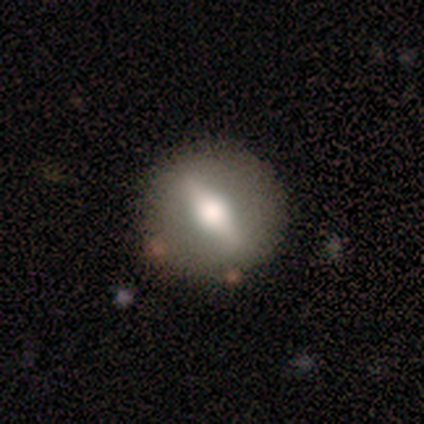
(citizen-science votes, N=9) Smooth or featured? featured or disk (67%)
Edge-on disk? no (83%)
Bar? strong (100%)
Spiral arms? no (100%)
Bulge size? moderate (80%)
Merging? none (100%)